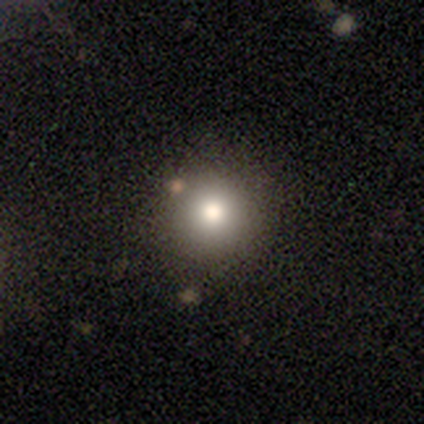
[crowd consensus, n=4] Smooth or featured? 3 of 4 (75%) said smooth. How rounded? 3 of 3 (100%) said round. Merging? 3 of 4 (75%) said none.